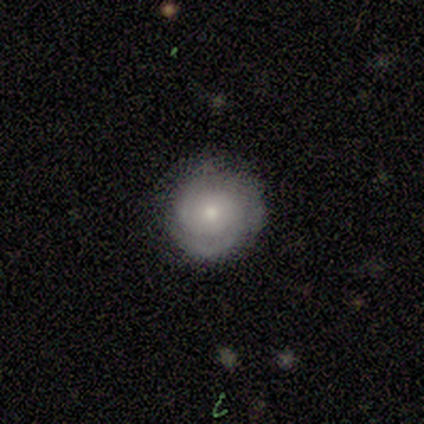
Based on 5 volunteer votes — smooth-or-featured: featured or disk: 60% | smooth: 20% | star or artifact: 20%
  disk-edge-on: no: 100% | yes: 0%
    bar: no: 100% | strong: 0% | weak: 0%
    has-spiral-arms: yes: 67% | no: 33%
      spiral-winding: tight: 50% (tied) | medium: 50% (tied) | loose: 0%
      spiral-arm-count: 1: 50% (tied) | can't tell: 50% (tied) | 2: 0% | 3: 0% | 4: 0% | more than 4: 0%
    bulge-size: small: 67% | moderate: 33% | dominant: 0% | large: 0% | none: 0%
  merging: none: 100% | minor disturbance: 0% | major disturbance: 0% | merger: 0%